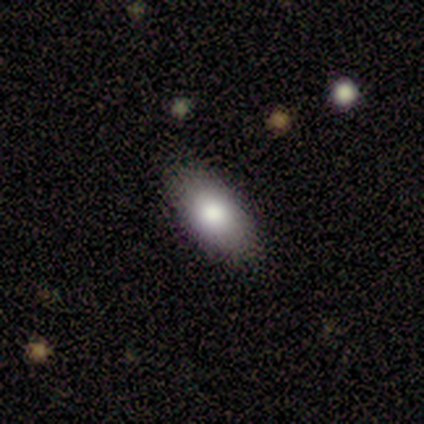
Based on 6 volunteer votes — smooth_or_featured: smooth (p=0.67) [alt: featured or disk p=0.33]
how_rounded: in between (p=1.00)
merging: none (p=1.00)